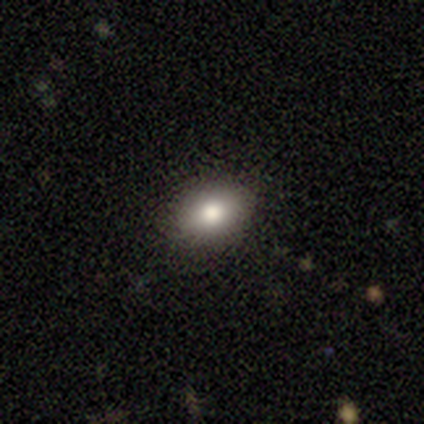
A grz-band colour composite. It shows a smooth galaxy with no disk features (100%) that is round (100%). Merging: none (100%).